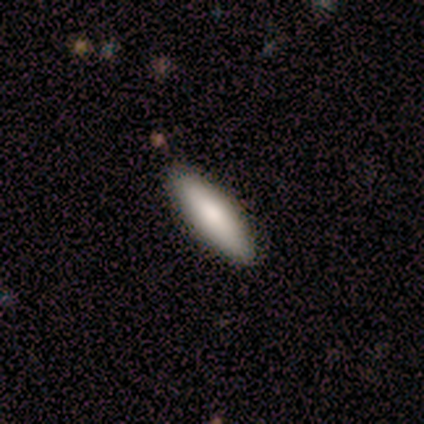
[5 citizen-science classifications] A smooth galaxy with no disk features (100%) that is in between round and cigar-shaped (60%).

Vote fractions:
- Smooth or featured? smooth: 100% / featured or disk: 0% / star or artifact: 0%
- How rounded? in between: 60% / cigar-shaped: 40% / round: 0%
- Merging? none: 100% / minor disturbance: 0% / major disturbance: 0% / merger: 0%